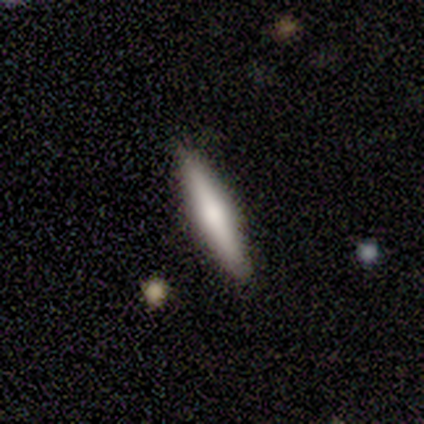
This appears to be a smooth galaxy with no disk features (40%, tied with featured or disk) that is cigar-shaped (100%). Merging: none (100%).